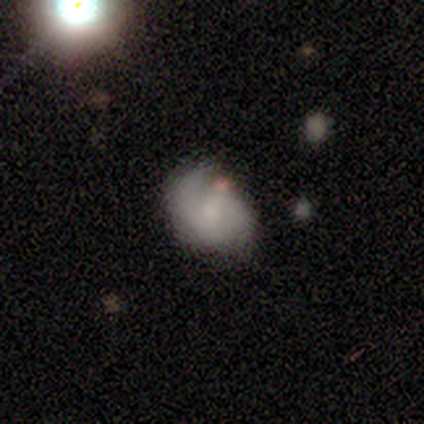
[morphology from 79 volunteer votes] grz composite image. It shows a featured or disk galaxy (62%) with no bar (60%), 2 (76%) medium (49%) spiral arms (77%) and no central bulge (35%). Merging: none (32%).